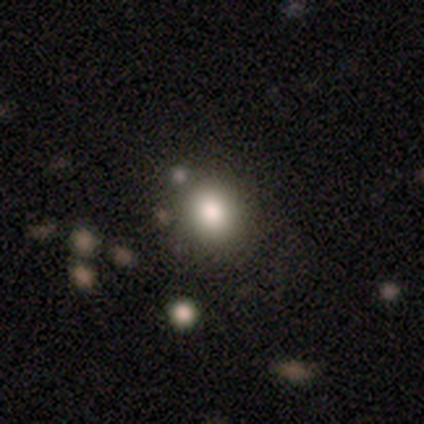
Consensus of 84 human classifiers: This is likely a smooth galaxy (77%). How rounded: likely round (71%). Merging: clearly none (87%).